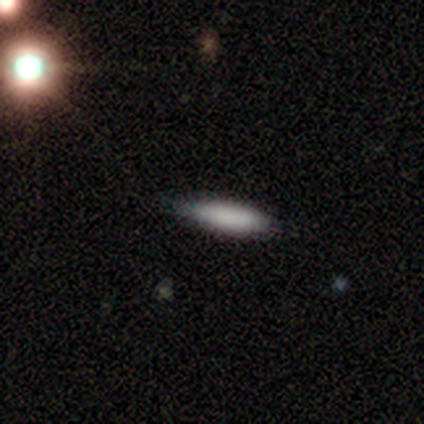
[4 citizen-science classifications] This appears to be a smooth galaxy with no disk features (100%) that is cigar-shaped (75%). Merging: none (50%, tied with minor disturbance).